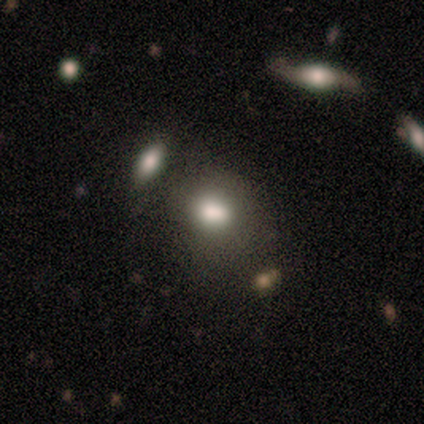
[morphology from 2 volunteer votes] type=smooth (100%); roundness=round (50%, tied with in between); merging=none (50%, tied with minor disturbance).